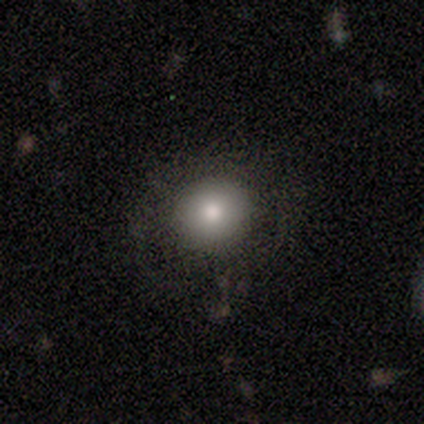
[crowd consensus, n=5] smooth-or-featured: smooth: 80% | featured or disk: 20% | star or artifact: 0%
  how-rounded: round: 75% | in between: 25% | cigar-shaped: 0%
  merging: none: 80% | minor disturbance: 20% | major disturbance: 0% | merger: 0%